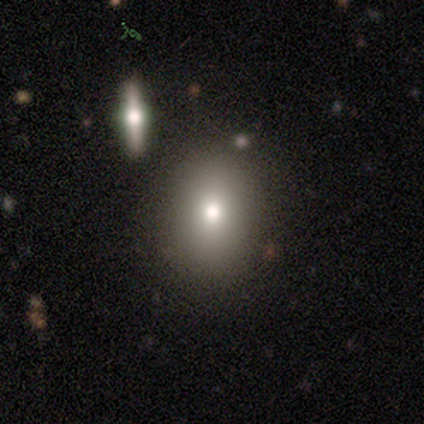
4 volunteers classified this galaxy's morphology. smooth-or-featured: smooth: 50% | featured or disk: 25% | star or artifact: 25%
  how-rounded: round: 50% (tied) | in between: 50% (tied) | cigar-shaped: 0%
  merging: minor disturbance: 67% | none: 33% | major disturbance: 0% | merger: 0%